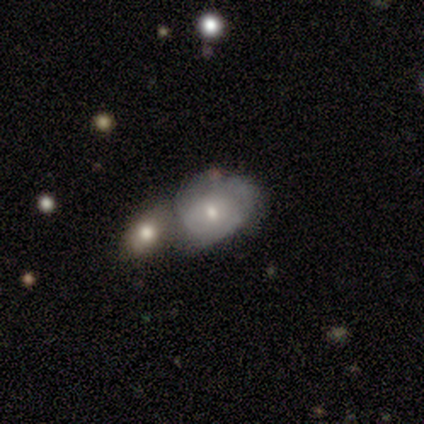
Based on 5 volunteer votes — Volunteers were most divided on "smooth or featured": featured or disk: 60%, smooth: 40%, star or artifact: 0%. More confident: edge-on disk — no (100%); bar — no (100%); spiral arms — no (100%); bulge size — moderate (67%); merging — merger (60%).